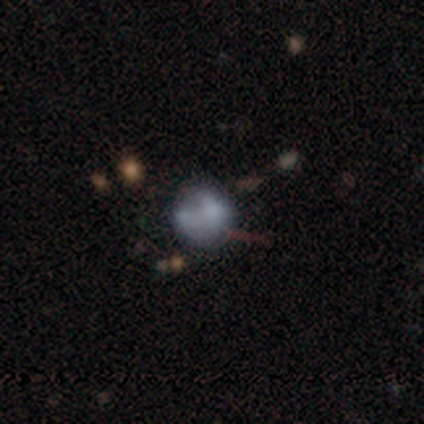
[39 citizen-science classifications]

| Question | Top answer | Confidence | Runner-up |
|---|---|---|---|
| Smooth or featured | smooth | 49% | featured or disk (41%) |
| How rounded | round | 84% | in between (16%) |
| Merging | none | 49% | minor disturbance (20%) |